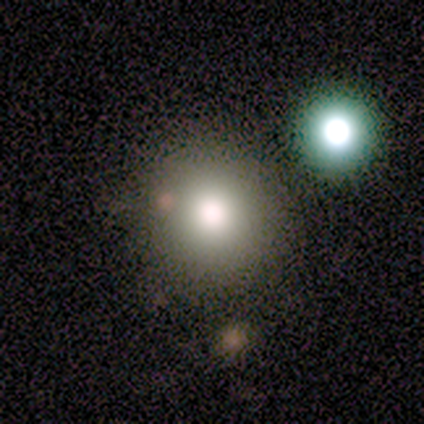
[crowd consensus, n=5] smooth-or-featured: smooth: 80% | featured or disk: 20% | star or artifact: 0%
  how-rounded: round: 100% | in between: 0% | cigar-shaped: 0%
  merging: none: 100% | minor disturbance: 0% | major disturbance: 0% | merger: 0%